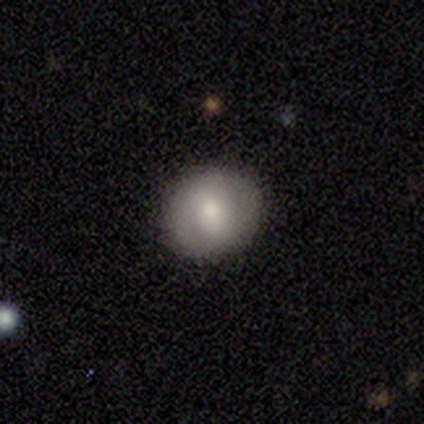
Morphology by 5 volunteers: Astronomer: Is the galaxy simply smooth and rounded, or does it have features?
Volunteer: smooth — 60% (runner-up: featured or disk, 40%).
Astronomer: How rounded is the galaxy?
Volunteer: round — 67%.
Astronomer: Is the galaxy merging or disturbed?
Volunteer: none — 100%.